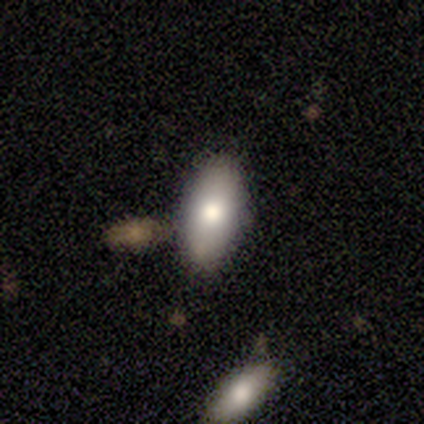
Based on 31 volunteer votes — smooth 81%, featured or disk 13%, star or artifact 6%. Down the decision tree: how rounded — in between (100%); merging — none (93%).